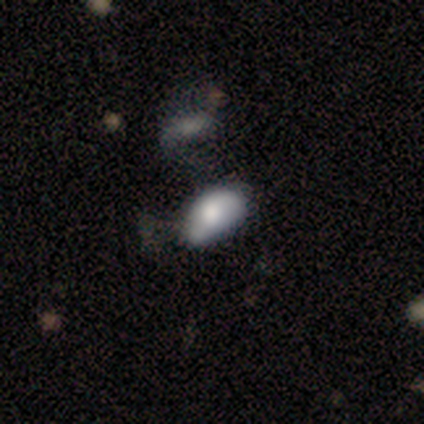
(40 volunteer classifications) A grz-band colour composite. It shows a smooth galaxy with no disk features (62%) that is in between round and cigar-shaped (92%). Merging: minor disturbance (39%).